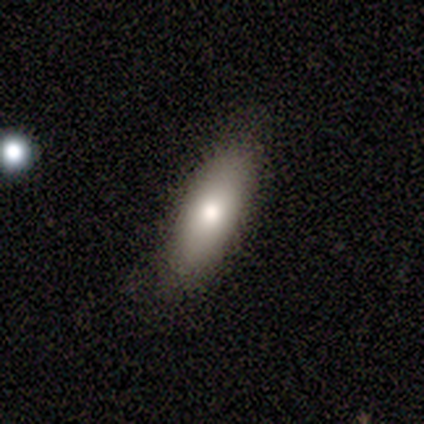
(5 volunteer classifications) Overall: smooth (60%; featured or disk 20%). How rounded: cigar-shaped (67%; in between 33%). Merging: none (75%).